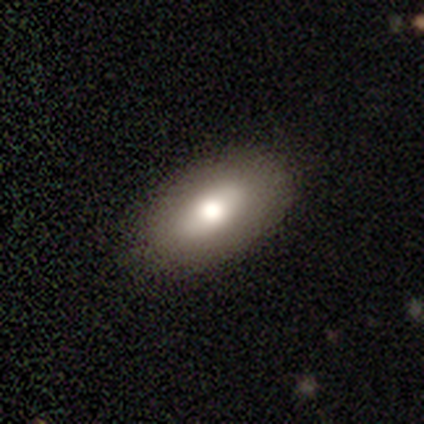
A smooth galaxy with no disk features (87%) that is in between round and cigar-shaped (100%).

Vote fractions:
- Smooth or featured? smooth: 87% / featured or disk: 13% / star or artifact: 0%
- How rounded? in between: 100% / round: 0% / cigar-shaped: 0%
- Merging? none: 87% / minor disturbance: 13% / major disturbance: 0% / merger: 0%